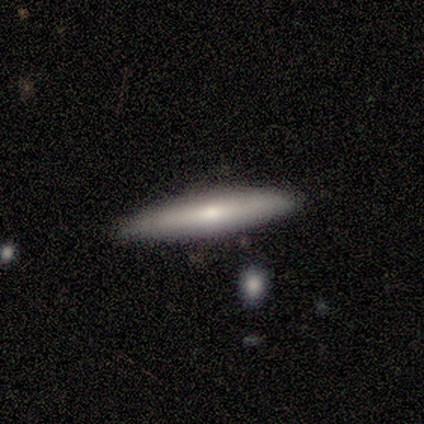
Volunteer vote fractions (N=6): A featured or disk galaxy (67%) viewed edge-on (100%) with a rounded central bulge (75%).

Vote fractions:
- Smooth or featured? featured or disk: 67% / smooth: 33% / star or artifact: 0%
- Edge-on disk? yes: 100% / no: 0%
- Edge-on bulge? rounded: 75% / none: 25% / boxy: 0%
- Merging? none: 100% / minor disturbance: 0% / major disturbance: 0% / merger: 0%